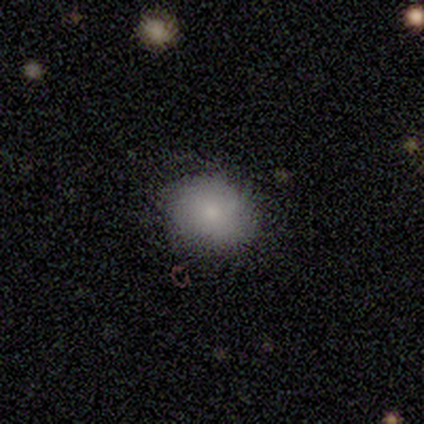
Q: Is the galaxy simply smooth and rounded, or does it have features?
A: smooth — 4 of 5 (80%).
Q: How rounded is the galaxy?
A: round — 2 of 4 (50%, tied with in between).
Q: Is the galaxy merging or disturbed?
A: none — 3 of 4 (75%).